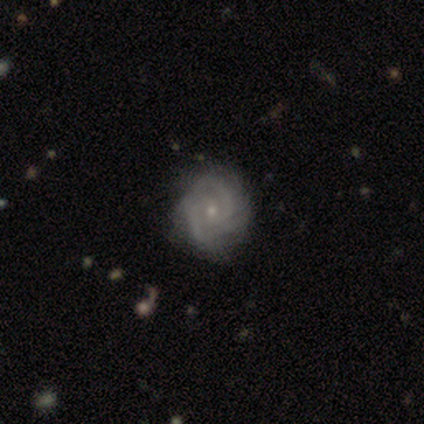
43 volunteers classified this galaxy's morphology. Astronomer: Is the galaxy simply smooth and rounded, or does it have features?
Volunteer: featured or disk — 91%.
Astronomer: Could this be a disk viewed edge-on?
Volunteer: no — 100%.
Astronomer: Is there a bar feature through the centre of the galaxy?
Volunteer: no — 69%.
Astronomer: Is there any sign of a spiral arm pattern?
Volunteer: yes — 97%.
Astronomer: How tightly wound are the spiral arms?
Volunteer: tight — 61%.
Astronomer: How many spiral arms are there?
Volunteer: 3 — 37% (runner-up: 2, 34%).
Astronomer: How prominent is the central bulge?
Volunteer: small — 82%.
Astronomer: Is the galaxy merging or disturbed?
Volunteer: none — 57%.